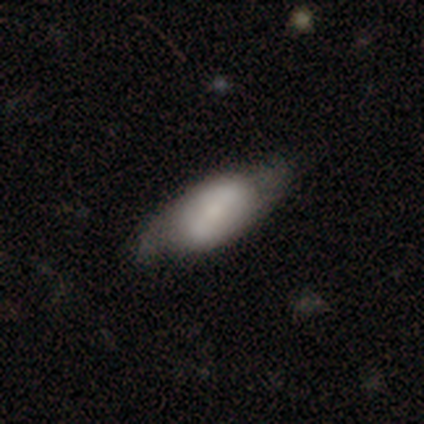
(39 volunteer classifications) Smooth or featured? smooth (67%)
How rounded? in between (88%)
Merging? none (47%)